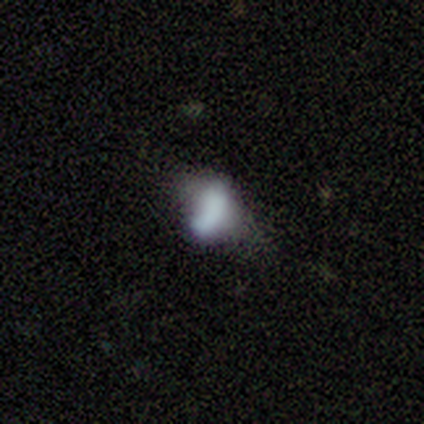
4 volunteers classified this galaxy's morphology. smooth-or-featured: smooth: 100% | featured or disk: 0% | star or artifact: 0%
  how-rounded: in between: 100% | round: 0% | cigar-shaped: 0%
  merging: minor disturbance: 75% | none: 25% | major disturbance: 0% | merger: 0%